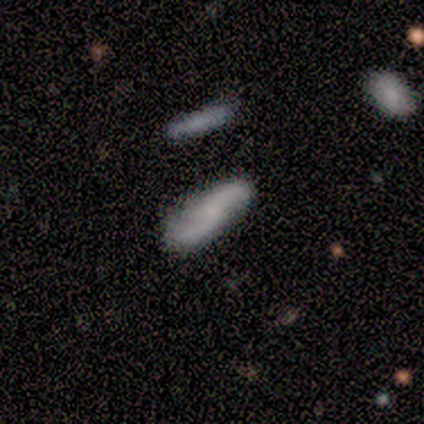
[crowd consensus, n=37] A featured or disk galaxy (62%) with no bar (85%), 2 (100%) loose (84%) spiral arms (95%) and no central bulge (80%).

Vote fractions:
- Smooth or featured? featured or disk: 62% / smooth: 32% / star or artifact: 5%
- Edge-on disk? no: 87% / yes: 13%
- Bar? no: 85% / weak: 15% / strong: 0%
- Spiral arms? yes: 95% / no: 5%
- Spiral winding? loose: 84% / medium: 16% / tight: 0%
- Spiral arm count? 2: 100% / 1: 0% / 3: 0% / 4: 0% / more than 4: 0% / can't tell: 0%
- Bulge size? none: 80% / small: 15% / large: 5% / dominant: 0% / moderate: 0%
- Merging? none: 77% / minor disturbance: 20% / major disturbance: 3% / merger: 0%